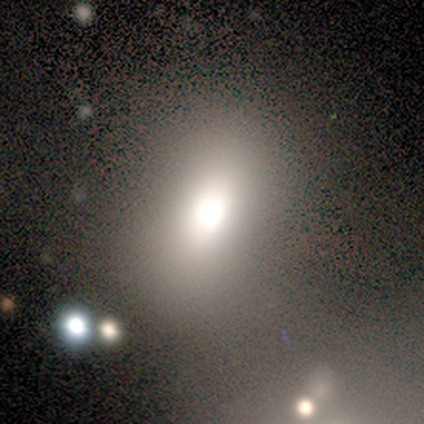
This appears to be a smooth galaxy with no disk features (60%) that is in between round and cigar-shaped (67%). Merging: none (100%).